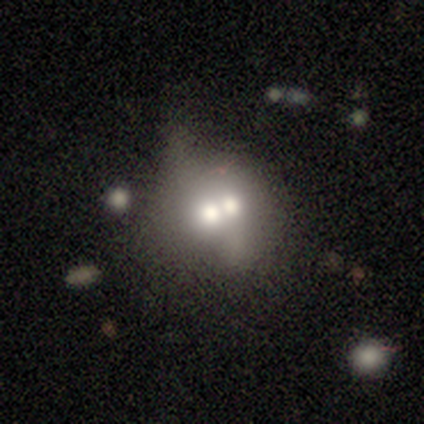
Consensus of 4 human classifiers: This is possibly a smooth galaxy (50%, tied with featured or disk). How rounded: possibly round (50%, tied with in between). Merging: likely merger (75%).